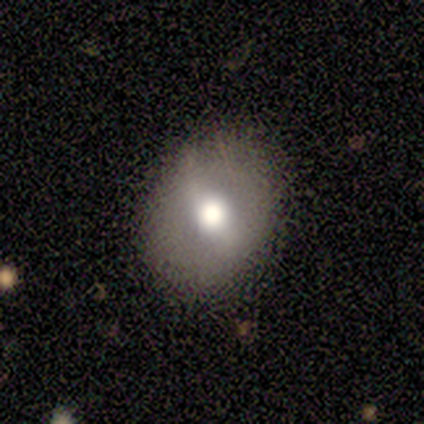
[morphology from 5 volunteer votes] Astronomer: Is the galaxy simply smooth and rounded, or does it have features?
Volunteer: smooth — 40%, tied with featured or disk at 40%.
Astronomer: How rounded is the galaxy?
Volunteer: round — 50%, tied with in between at 50%.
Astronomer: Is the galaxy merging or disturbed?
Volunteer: none — 100%.